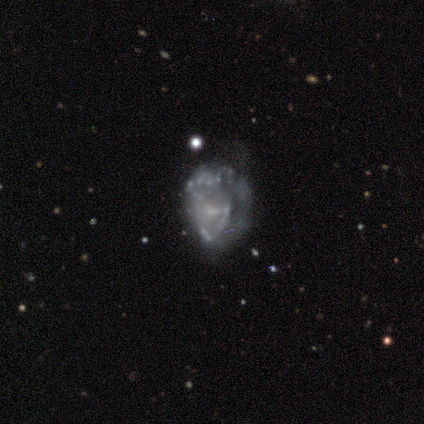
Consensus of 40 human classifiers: This is likely a featured or disk galaxy (78%). It is clearly not viewed edge-on (100%). Bar: likely no (65%). Spiral arm pattern: likely no (74%). Central bulge: likely none (61%). Merging: marginally none (41%).